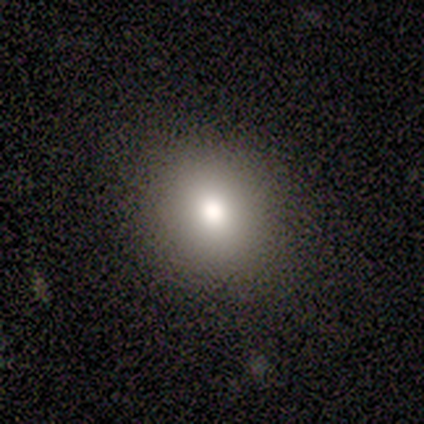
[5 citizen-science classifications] Volunteers were most divided on "how rounded": in between: 60%, round: 40%, cigar-shaped: 0%. More confident: smooth or featured — smooth (100%); merging — none (60%).